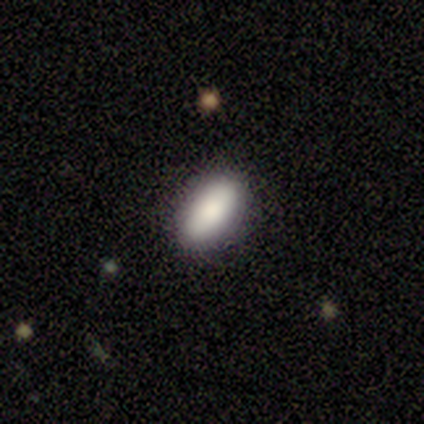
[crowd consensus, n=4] smooth-or-featured: smooth: 75% | featured or disk: 25% | star or artifact: 0%
  how-rounded: in between: 67% | cigar-shaped: 33% | round: 0%
  merging: none: 100% | minor disturbance: 0% | major disturbance: 0% | merger: 0%